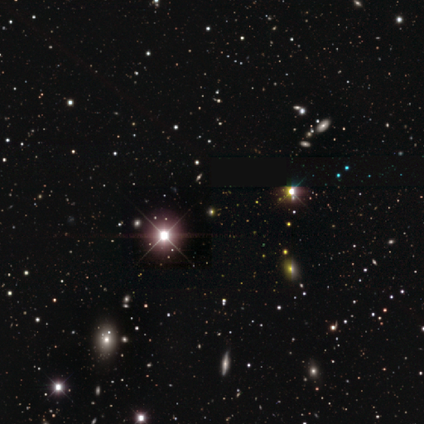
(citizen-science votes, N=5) star or artifact 100%, smooth 0%, featured or disk 0%.